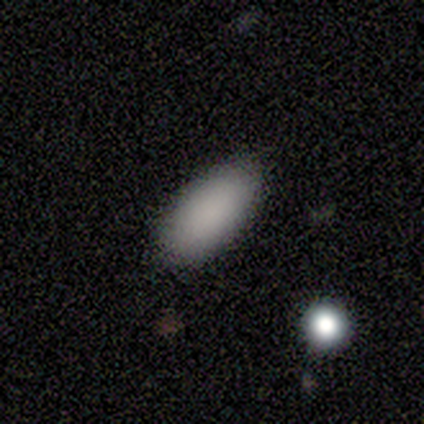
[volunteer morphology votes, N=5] smooth_or_featured: smooth (p=1.00)
how_rounded: in between (p=0.80) [alt: cigar-shaped p=0.20]
merging: none (p=1.00)